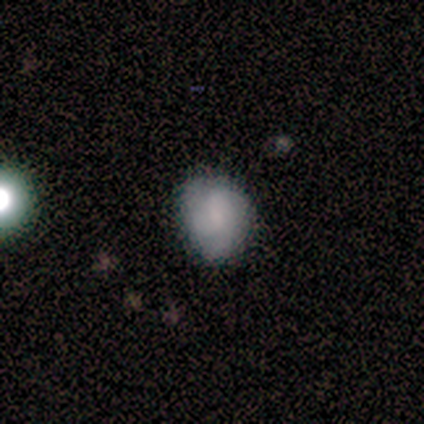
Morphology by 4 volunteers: Smooth or featured?
  - smooth: 75% *
  - star or artifact: 25%
  - featured or disk: 0%
How rounded?
  - in between: 67% *
  - round: 33%
  - cigar-shaped: 0%
Merging?
  - none: 67% *
  - minor disturbance: 33%
  - major disturbance: 0%
  - merger: 0%